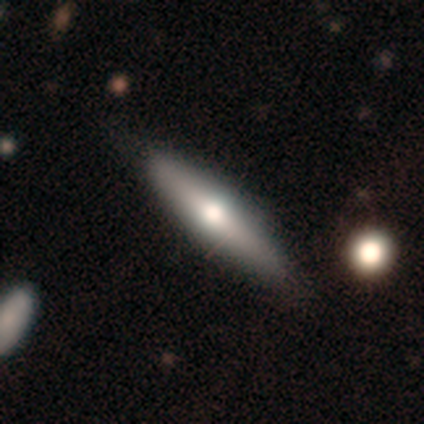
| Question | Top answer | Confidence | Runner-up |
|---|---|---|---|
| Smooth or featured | featured or disk | 62% | smooth (38%) |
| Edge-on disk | yes | 100% | — |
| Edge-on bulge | rounded | 100% | — |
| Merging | none | 75% | minor disturbance (12%) |